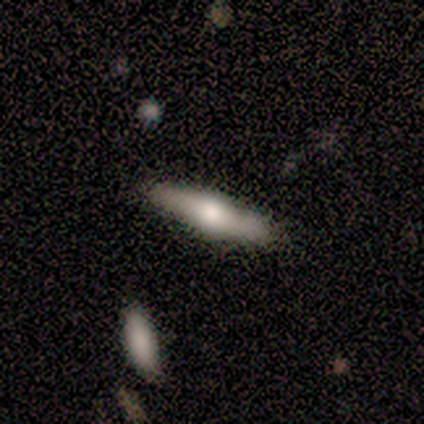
A featured or disk galaxy (75%) viewed edge-on (100%) with a rounded central bulge (83%).

Vote fractions:
- Smooth or featured? featured or disk: 75% / smooth: 25% / star or artifact: 0%
- Edge-on disk? yes: 100% / no: 0%
- Edge-on bulge? rounded: 83% / boxy: 17% / none: 0%
- Merging? none: 88% / minor disturbance: 12% / major disturbance: 0% / merger: 0%